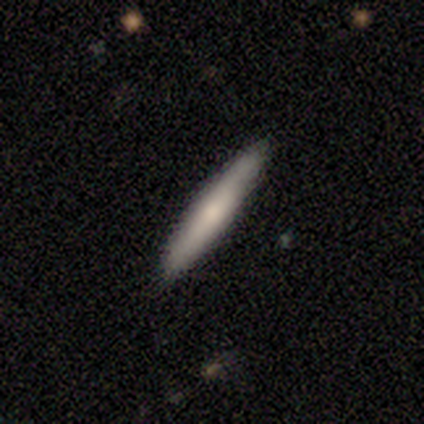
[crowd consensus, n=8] smooth-or-featured: smooth: 62% | featured or disk: 25% | star or artifact: 12%
  how-rounded: cigar-shaped: 80% | in between: 20% | round: 0%
  merging: none: 100% | minor disturbance: 0% | major disturbance: 0% | merger: 0%